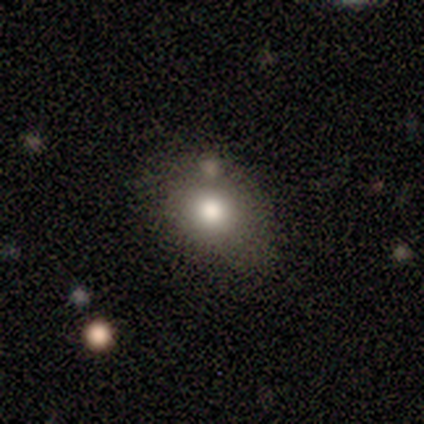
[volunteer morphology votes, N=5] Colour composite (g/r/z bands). It shows a smooth galaxy with no disk features (60%) that is in between round and cigar-shaped (67%). Merging: none (80%).